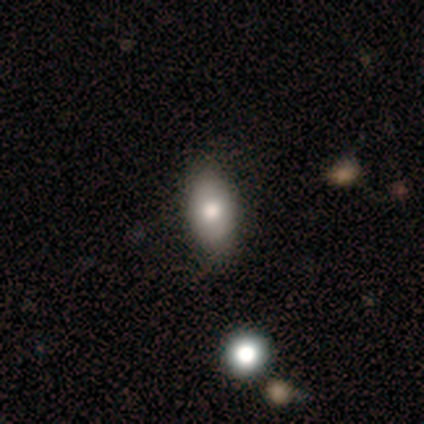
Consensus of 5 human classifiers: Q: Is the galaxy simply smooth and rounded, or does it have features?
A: smooth — 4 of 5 (80%).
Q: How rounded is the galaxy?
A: in between — 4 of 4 (100%).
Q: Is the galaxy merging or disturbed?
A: none — 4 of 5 (80%).